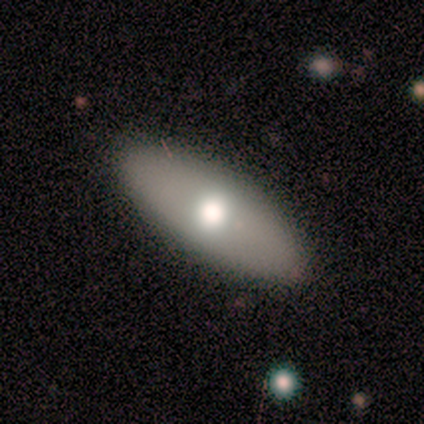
smooth 80%, featured or disk 20%, star or artifact 0%. Down the decision tree: how rounded — in between (75%); merging — none (100%).